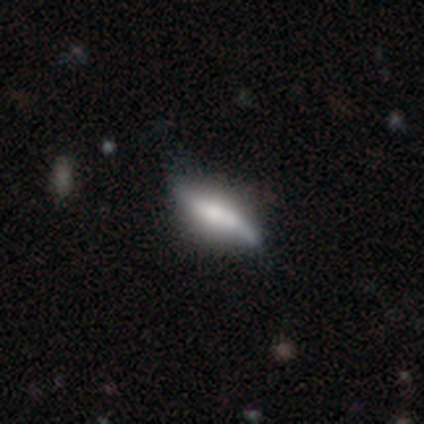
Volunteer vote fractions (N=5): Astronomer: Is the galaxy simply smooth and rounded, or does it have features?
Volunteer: featured or disk — 60% (runner-up: smooth, 40%).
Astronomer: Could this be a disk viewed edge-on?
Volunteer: yes — 100%.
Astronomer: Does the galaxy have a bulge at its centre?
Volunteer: rounded — 67%.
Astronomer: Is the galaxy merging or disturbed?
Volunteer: none — 100%.